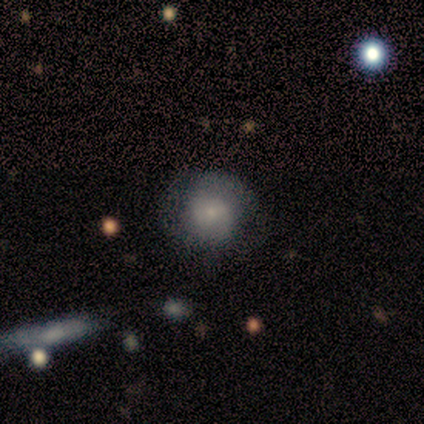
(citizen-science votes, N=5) A smooth galaxy with no disk features (80%) that is round (100%). Merging: none (100%).